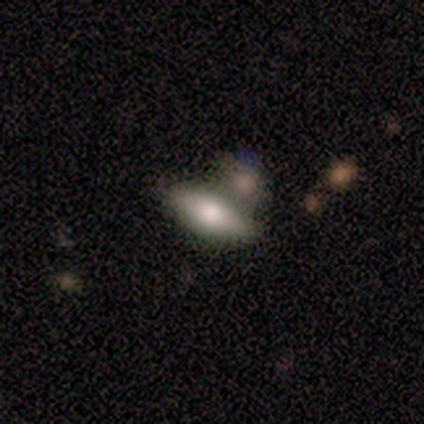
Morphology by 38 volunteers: type=smooth (82%); roundness=in between (77%); merging=merger (50%).